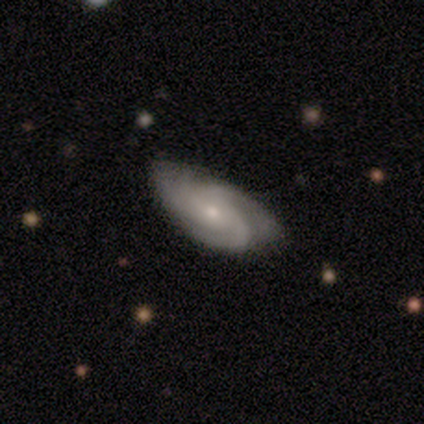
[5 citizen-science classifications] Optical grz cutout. It shows a featured or disk galaxy (80%) with no bar (100%), 3 (33%, tied with 4 and can't tell) tight (67%) spiral arms (100%) and a small central bulge (67%). Merging: minor disturbance (50%).